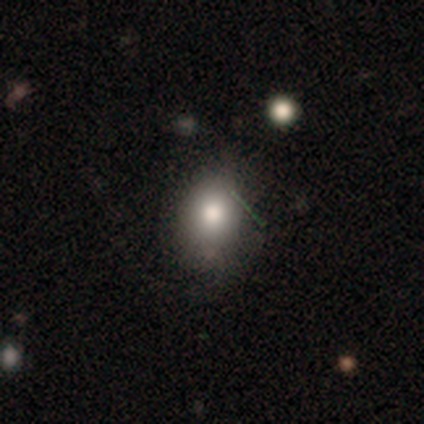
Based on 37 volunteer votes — Smooth or featured: smooth — 76% (featured or disk — 14%)
How rounded: in between — 68% (round — 32%)
Merging: none — 58% (minor disturbance — 39%)